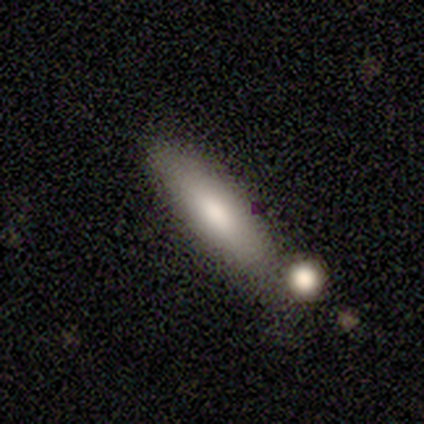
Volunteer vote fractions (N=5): This is clearly a smooth galaxy (80%). How rounded: likely cigar-shaped (75%). Merging: marginally none (40%, tied with merger).